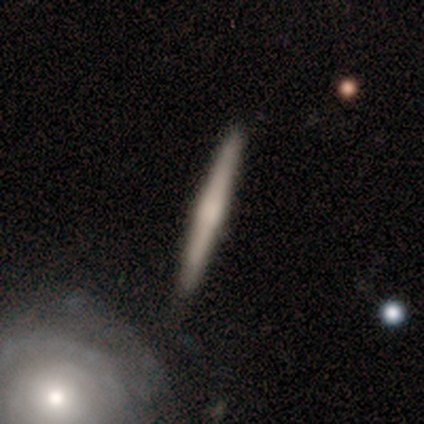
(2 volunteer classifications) Volunteers were most divided on "smooth or featured" (2-way tie): smooth: 50%, featured or disk: 50%, star or artifact: 0%. More confident: how rounded — cigar-shaped (100%); merging — none (100%).